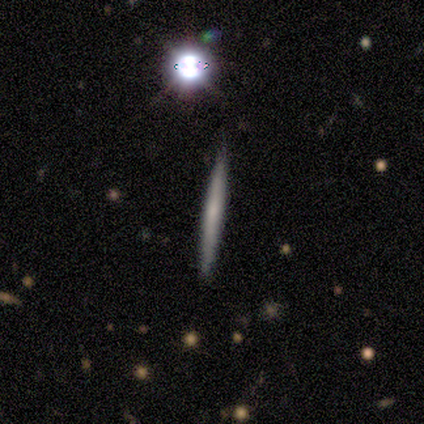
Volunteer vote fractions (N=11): smooth 82%, featured or disk 9%, star or artifact 9%. Down the decision tree: how rounded — cigar-shaped (100%); merging — none (90%).